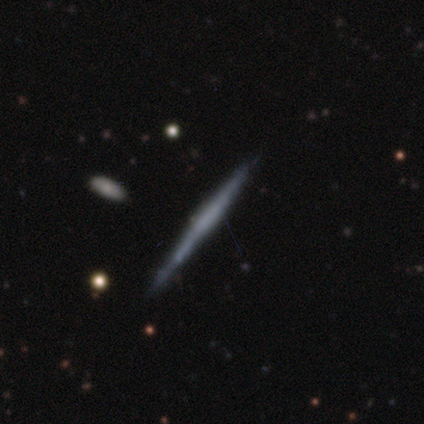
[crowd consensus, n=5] smooth_or_featured: smooth (p=0.40) [tied with: featured or disk p=0.40]
how_rounded: cigar-shaped (p=1.00)
merging: none (p=0.75) [alt: minor disturbance p=0.25]